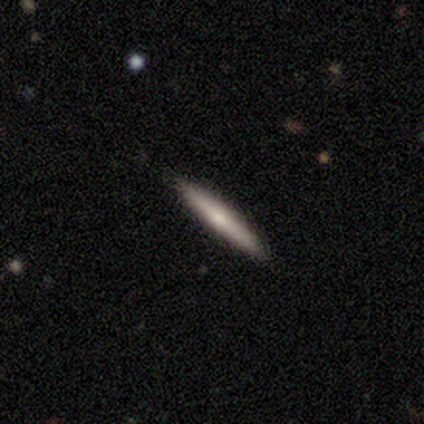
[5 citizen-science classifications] Morphology: type=smooth (80%); roundness=cigar-shaped (100%); merging=none (100%).